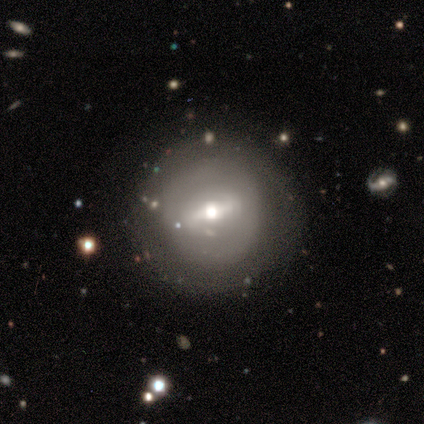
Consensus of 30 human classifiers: This appears to be a featured or disk galaxy (63%) with a strong bar (56%), no spiral arms (78%) and a moderate central bulge (72%). Merging: none (81%).